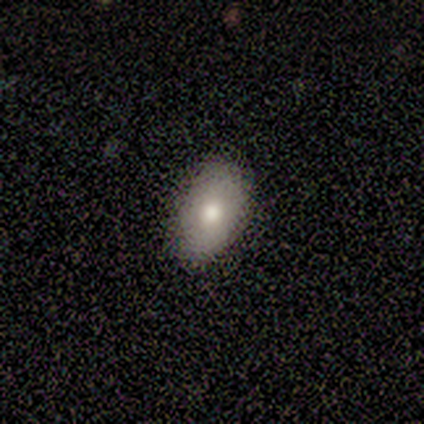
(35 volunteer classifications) A smooth galaxy with no disk features (77%) that is in between round and cigar-shaped (89%). Merging: none (94%).